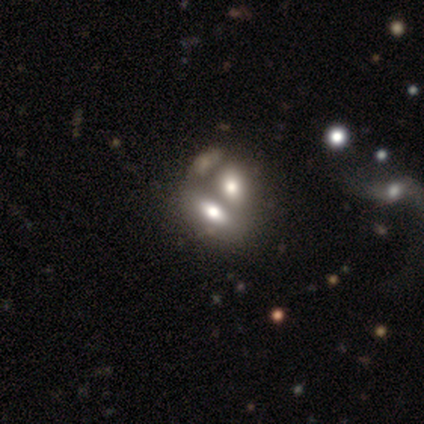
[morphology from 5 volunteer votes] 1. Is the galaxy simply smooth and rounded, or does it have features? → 60% featured or disk, 40% smooth, 0% star or artifact.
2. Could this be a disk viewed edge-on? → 100% no, 0% yes.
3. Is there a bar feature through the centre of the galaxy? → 67% no, 33% weak, 0% strong.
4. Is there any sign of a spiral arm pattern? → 67% yes, 33% no.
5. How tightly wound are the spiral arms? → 100% loose, 0% tight, 0% medium.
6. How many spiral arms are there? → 50% more than 4 (tied), 50% can't tell (tied), 0% 1, 0% 2, 0% 3, 0% 4.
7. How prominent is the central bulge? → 67% none, 33% small, 0% dominant, 0% large, 0% moderate.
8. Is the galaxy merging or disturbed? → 80% merger, 20% minor disturbance, 0% none, 0% major disturbance.